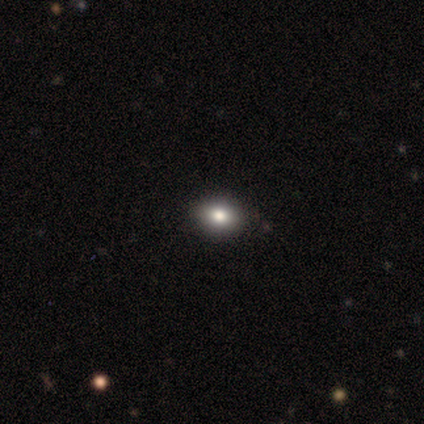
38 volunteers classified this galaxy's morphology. A smooth galaxy with no disk features (71%) that is in between round and cigar-shaped (63%). Merging: none (100%).